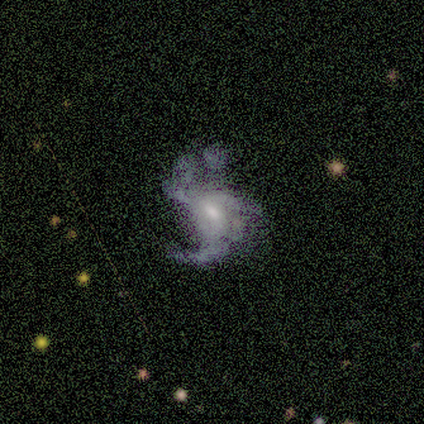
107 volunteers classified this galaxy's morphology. Volunteers were most divided on "bar": no: 52%, weak: 42%, strong: 6%. Remaining: edge-on disk — no (100%); smooth or featured — featured or disk (87%); spiral arms — yes (82%); spiral winding — loose (57%); bulge size — moderate (55%); merging — major disturbance (52%); spiral arm count — 3 (49%).